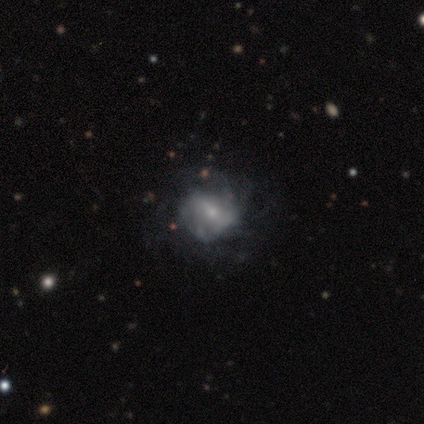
Smooth or featured? featured or disk (100%)
Edge-on disk? no (100%)
Bar? weak (60%)
Spiral arms? yes (60%)
Spiral winding? medium (67%)
Spiral arm count? can't tell (67%)
Bulge size? small (60%)
Merging? minor disturbance (40%, tied with major disturbance)